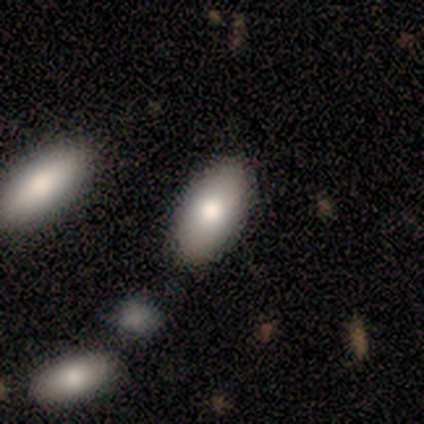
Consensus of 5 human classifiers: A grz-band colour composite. It shows a smooth galaxy with no disk features (60%) that is in between round and cigar-shaped (100%). Merging: none (75%).